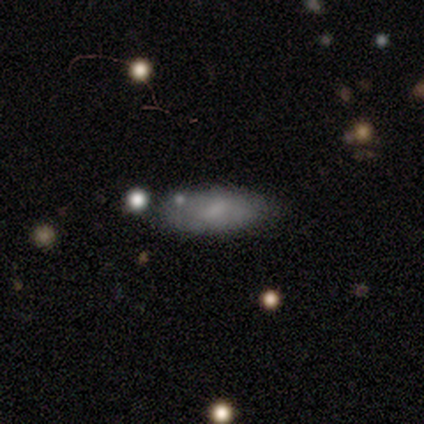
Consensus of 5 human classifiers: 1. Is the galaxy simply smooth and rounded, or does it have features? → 60% smooth, 40% featured or disk, 0% star or artifact.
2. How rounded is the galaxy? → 100% in between, 0% round, 0% cigar-shaped.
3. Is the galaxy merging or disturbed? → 80% none, 20% minor disturbance, 0% major disturbance, 0% merger.